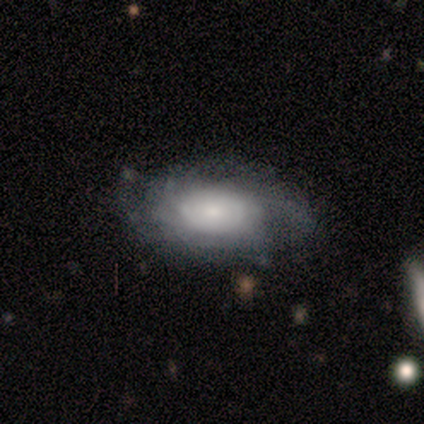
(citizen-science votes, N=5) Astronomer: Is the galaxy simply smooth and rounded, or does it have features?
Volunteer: featured or disk — 60%.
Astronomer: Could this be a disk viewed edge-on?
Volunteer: no — 100%.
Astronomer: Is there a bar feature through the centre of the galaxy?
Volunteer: no — 100%.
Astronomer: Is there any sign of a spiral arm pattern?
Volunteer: yes — 100%.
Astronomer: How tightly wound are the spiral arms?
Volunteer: tight — 100%.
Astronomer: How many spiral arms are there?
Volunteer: can't tell — 100%.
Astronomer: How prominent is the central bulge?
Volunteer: small — 67%.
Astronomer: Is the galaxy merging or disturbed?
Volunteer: none — 75%.